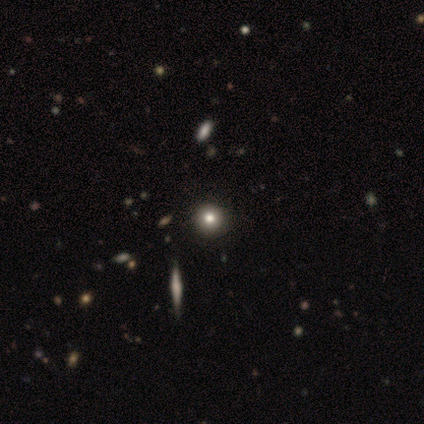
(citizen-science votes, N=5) This is clearly a smooth galaxy (80%). How rounded: clearly round (100%). Merging: clearly none (100%).